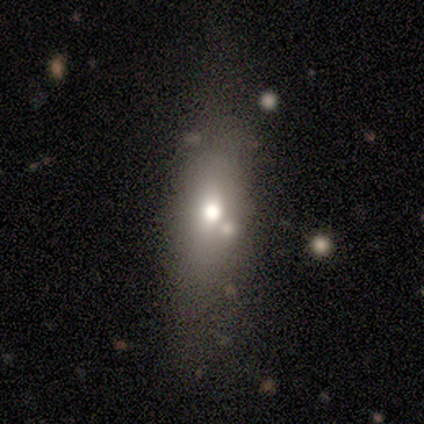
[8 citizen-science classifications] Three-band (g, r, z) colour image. It shows a smooth galaxy with no disk features (50%) that is in between round and cigar-shaped (100%). Merging: none (83%).